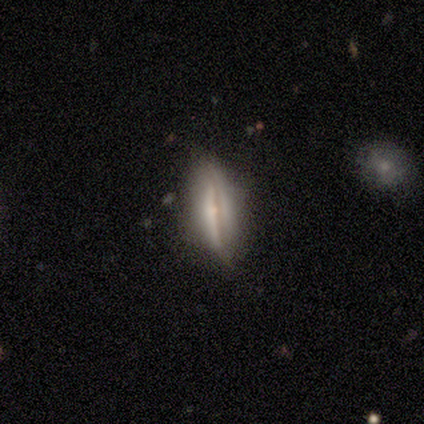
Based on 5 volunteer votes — smooth-or-featured: featured or disk: 60% | smooth: 40% | star or artifact: 0%
  disk-edge-on: yes: 100% | no: 0%
    edge-on-bulge: rounded: 100% | boxy: 0% | none: 0%
  merging: none: 40% (tied) | minor disturbance: 40% (tied) | major disturbance: 20% | merger: 0%